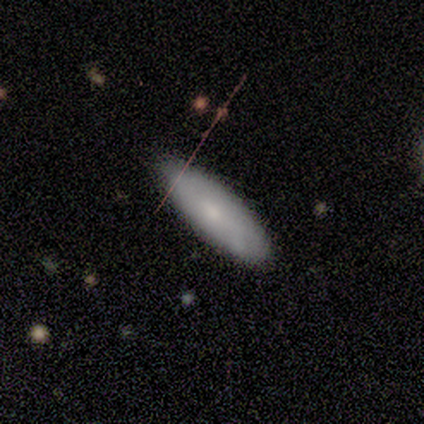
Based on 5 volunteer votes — Smooth or featured? smooth (80%)
How rounded? in between (50%, tied with cigar-shaped)
Merging? none (100%)